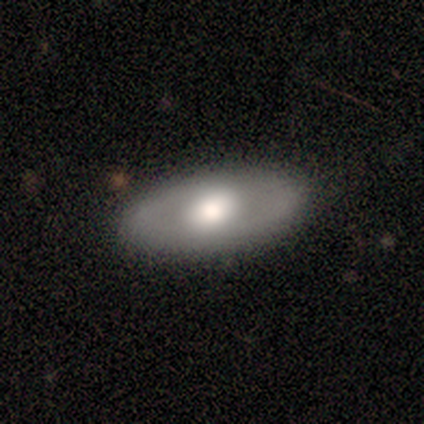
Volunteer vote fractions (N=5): This appears to be a featured or disk galaxy (80%) with no bar (67%), no spiral arms (67%) and a moderate central bulge (67%). Merging: none (100%).